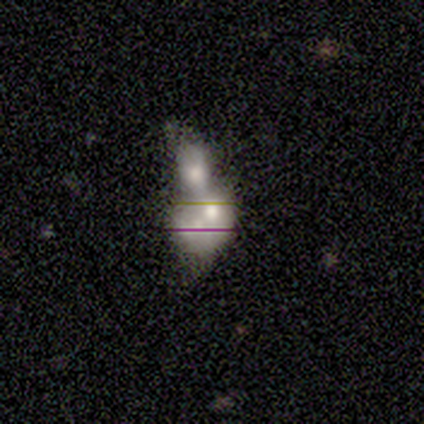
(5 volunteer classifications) This appears to be a smooth galaxy with no disk features (60%) that is in between round and cigar-shaped (100%). Merging: merger (100%).